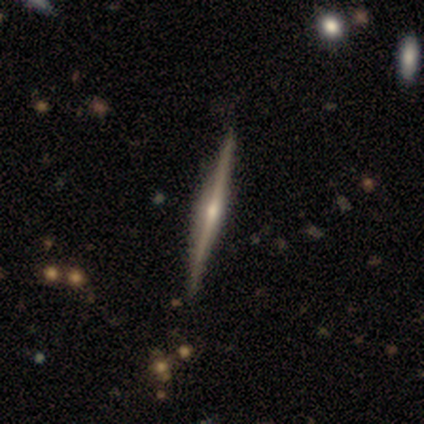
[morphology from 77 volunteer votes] Volunteers were most divided on "edge-on bulge": rounded: 80%, none: 11%, boxy: 9%. More confident: edge-on disk — yes (99%); merging — none (93%); smooth or featured — featured or disk (87%).